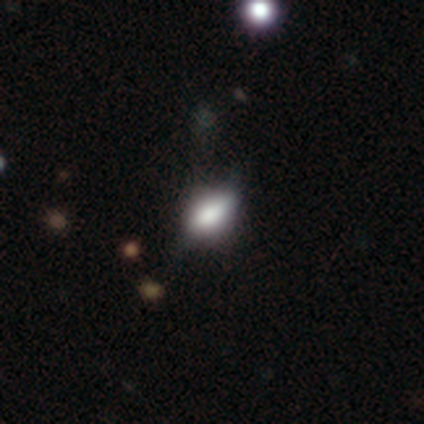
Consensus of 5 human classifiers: Overall: smooth (100%). How rounded: in between (100%). Merging: none (80%).